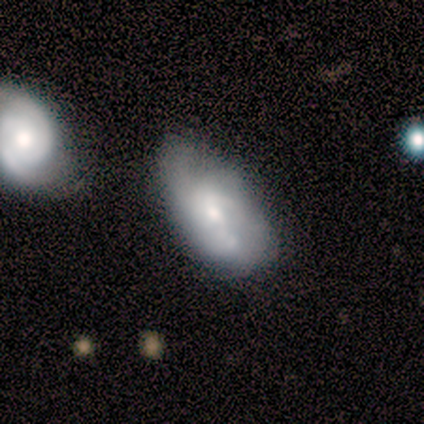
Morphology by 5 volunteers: This appears to be a featured or disk galaxy (80%) with no bar (75%), no spiral arms (75%) and a small central bulge (75%). Merging: none (80%).